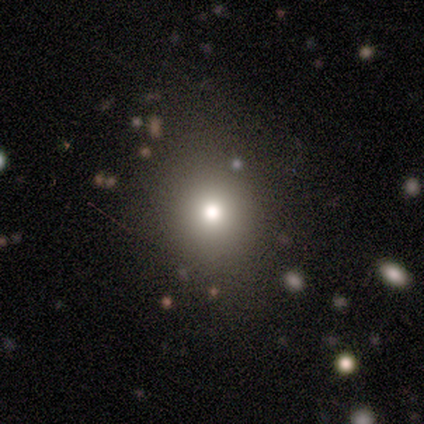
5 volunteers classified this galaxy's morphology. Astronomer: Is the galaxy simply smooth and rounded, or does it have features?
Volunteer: smooth — 80%.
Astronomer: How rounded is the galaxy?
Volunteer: round — 100%.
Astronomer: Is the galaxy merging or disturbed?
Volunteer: none — 75%.